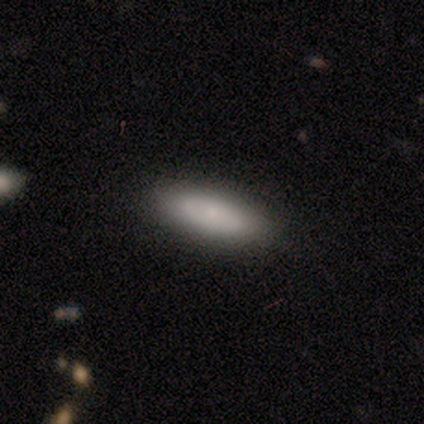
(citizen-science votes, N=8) Smooth or featured? 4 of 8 (50%, tied with featured or disk) said smooth. How rounded? 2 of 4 (50%, tied with cigar-shaped) said in between. Merging? 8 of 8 (100%) said none.